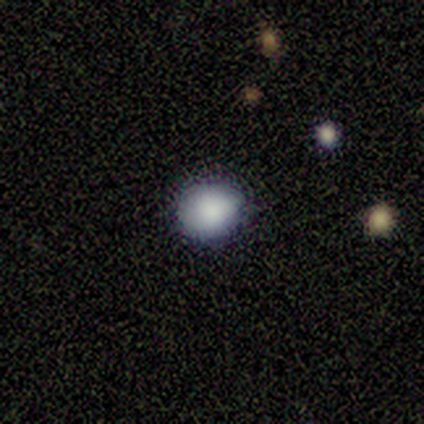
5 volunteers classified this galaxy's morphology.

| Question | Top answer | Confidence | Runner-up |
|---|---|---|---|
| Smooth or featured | smooth | 80% | star or artifact (20%) |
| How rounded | round | 100% | — |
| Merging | none | 100% | — |